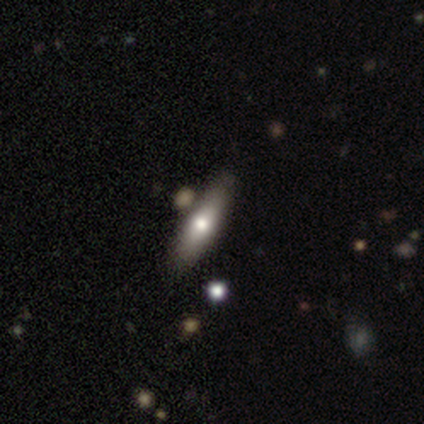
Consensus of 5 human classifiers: Smooth or featured?
  - featured or disk: 60% *
  - smooth: 40%
  - star or artifact: 0%
Edge-on disk?
  - yes: 67% *
  - no: 33%
Edge-on bulge?
  - rounded: 100% *
  - boxy: 0%
  - none: 0%
Merging?
  - none: 100% *
  - minor disturbance: 0%
  - major disturbance: 0%
  - merger: 0%